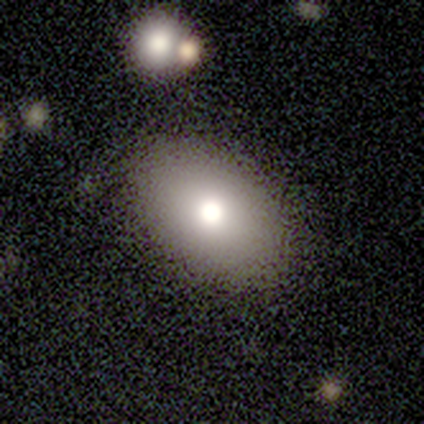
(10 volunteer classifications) smooth 80%, featured or disk 10%, star or artifact 10%. Down the decision tree: how rounded — in between (88%); merging — none (78%).